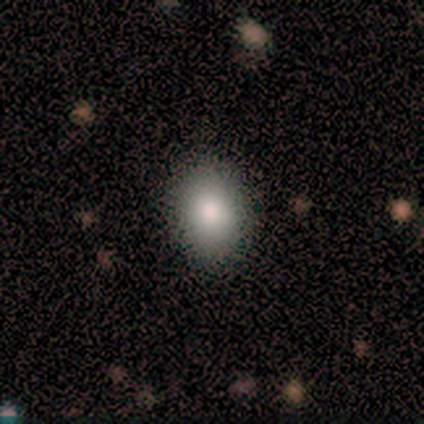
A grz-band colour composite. It shows a smooth galaxy with no disk features (80%) that is in between round and cigar-shaped (59%). Merging: none (95%).